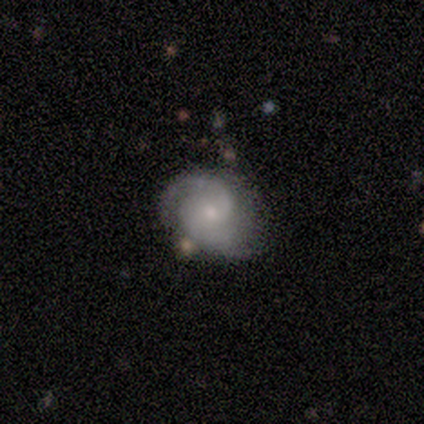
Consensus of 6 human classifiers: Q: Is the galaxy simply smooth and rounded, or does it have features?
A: featured or disk — 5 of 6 (83%).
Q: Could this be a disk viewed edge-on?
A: no — 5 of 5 (100%).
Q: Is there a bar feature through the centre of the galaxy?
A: no — 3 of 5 (60%).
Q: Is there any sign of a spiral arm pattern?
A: yes — 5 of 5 (100%).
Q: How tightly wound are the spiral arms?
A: tight — 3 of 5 (60%).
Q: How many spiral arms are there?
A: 2 — 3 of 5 (60%).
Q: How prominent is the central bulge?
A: small — 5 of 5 (100%).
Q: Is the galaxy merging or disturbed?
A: none — 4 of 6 (67%).